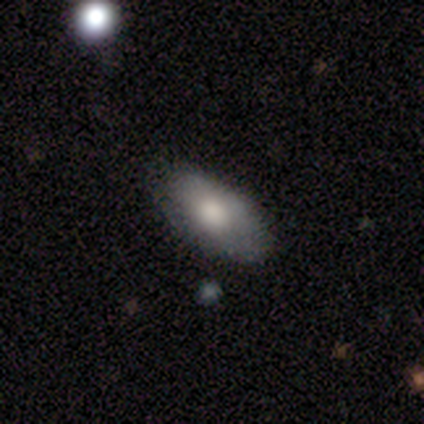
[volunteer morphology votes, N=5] Smooth or featured: smooth — 100%
How rounded: in between — 80% (cigar-shaped — 20%)
Merging: none — 80% (minor disturbance — 20%)